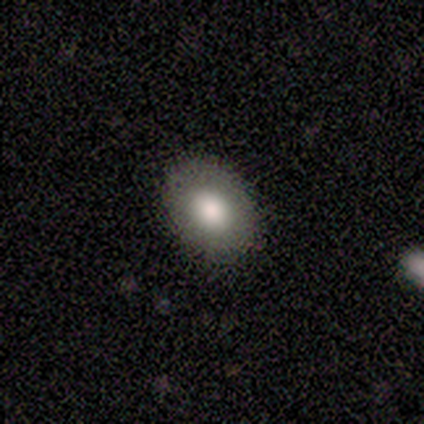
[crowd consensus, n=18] This is clearly a smooth galaxy (83%). How rounded: likely in between (73%). Merging: clearly none (100%).